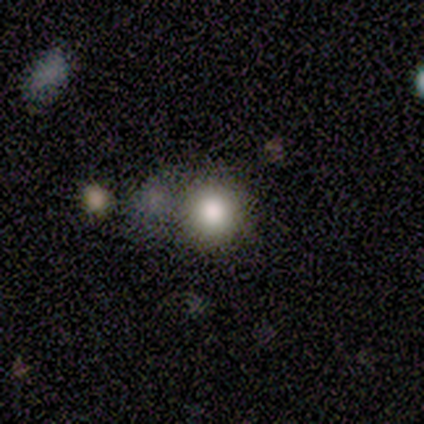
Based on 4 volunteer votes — Q: Smooth or featured?
A: smooth (50%); tied with: featured or disk (50%)
Q: How rounded?
A: round (100%)
Q: Merging?
A: none (75%); runner-up: minor disturbance (25%)